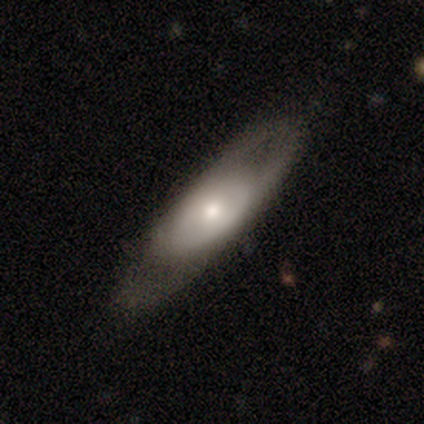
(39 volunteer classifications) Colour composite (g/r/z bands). It shows a featured or disk galaxy (56%) with no bar (71%), no spiral arms (53%) and a moderate central bulge (47%). Merging: none (62%).